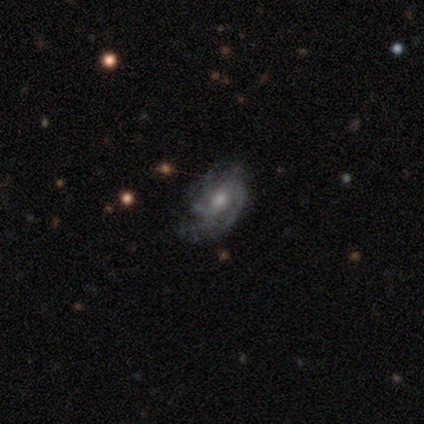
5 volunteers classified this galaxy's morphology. Smooth or featured?
  - featured or disk: 100% *
  - smooth: 0%
  - star or artifact: 0%
Edge-on disk?
  - no: 100% *
  - yes: 0%
Bar?
  - no: 60% *
  - strong: 40%
  - weak: 0%
Spiral arms?
  - yes: 100% *
  - no: 0%
Spiral winding?
  - tight: 80% *
  - medium: 20%
  - loose: 0%
Spiral arm count?
  - more than 4: 40% * (tied)
  - can't tell: 40% * (tied)
  - 2: 20%
  - 1: 0%
  - 3: 0%
  - 4: 0%
Bulge size?
  - small: 80% *
  - large: 20%
  - dominant: 0%
  - moderate: 0%
  - none: 0%
Merging?
  - none: 40% * (tied)
  - major disturbance: 40% * (tied)
  - minor disturbance: 20%
  - merger: 0%